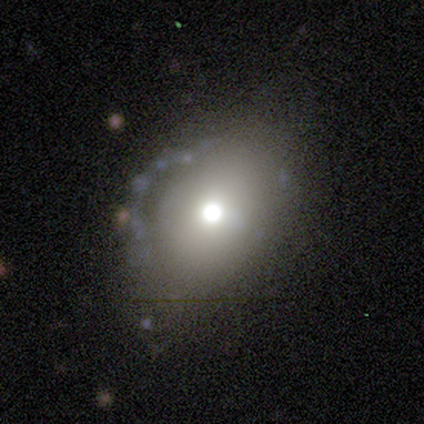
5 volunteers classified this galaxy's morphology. Smooth or featured?
  - smooth: 60% *
  - featured or disk: 20%
  - star or artifact: 20%
How rounded?
  - in between: 100% *
  - round: 0%
  - cigar-shaped: 0%
Merging?
  - none: 75% *
  - merger: 25%
  - minor disturbance: 0%
  - major disturbance: 0%